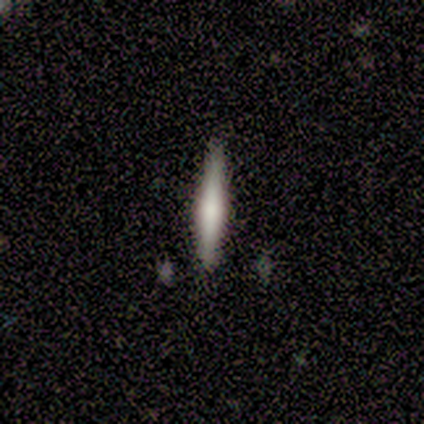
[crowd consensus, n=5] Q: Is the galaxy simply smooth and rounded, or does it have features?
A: featured or disk — 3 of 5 (60%).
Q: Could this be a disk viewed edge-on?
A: yes — 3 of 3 (100%).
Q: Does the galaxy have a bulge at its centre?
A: rounded — 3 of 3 (100%).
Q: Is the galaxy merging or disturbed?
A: none — 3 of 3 (100%).